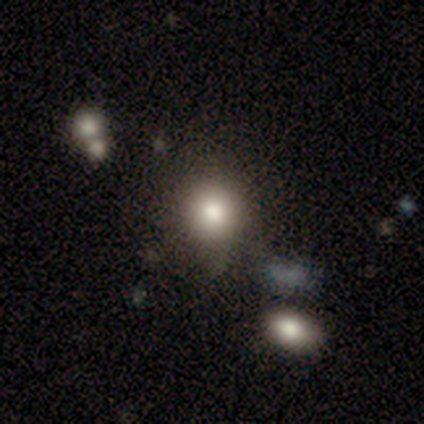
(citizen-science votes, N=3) A smooth galaxy with no disk features (67%) that is round (100%).

Vote fractions:
- Smooth or featured? smooth: 67% / star or artifact: 33% / featured or disk: 0%
- How rounded? round: 100% / in between: 0% / cigar-shaped: 0%
- Merging? none: 50% (tied) / minor disturbance: 50% (tied) / major disturbance: 0% / merger: 0%